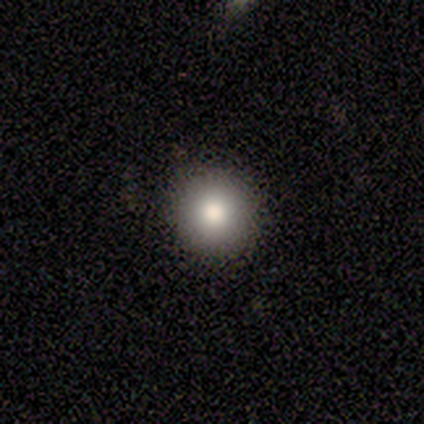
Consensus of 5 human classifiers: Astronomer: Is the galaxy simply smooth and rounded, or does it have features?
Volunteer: smooth — 80%.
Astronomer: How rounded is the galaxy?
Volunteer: round — 100%.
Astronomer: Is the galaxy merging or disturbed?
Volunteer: none — 100%.